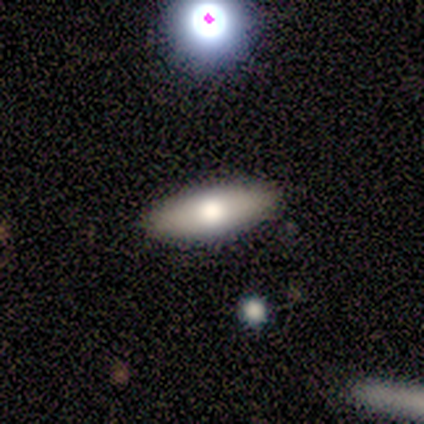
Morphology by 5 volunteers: smooth-or-featured: smooth: 80% | featured or disk: 20% | star or artifact: 0%
  how-rounded: in between: 75% | cigar-shaped: 25% | round: 0%
  merging: none: 100% | minor disturbance: 0% | major disturbance: 0% | merger: 0%